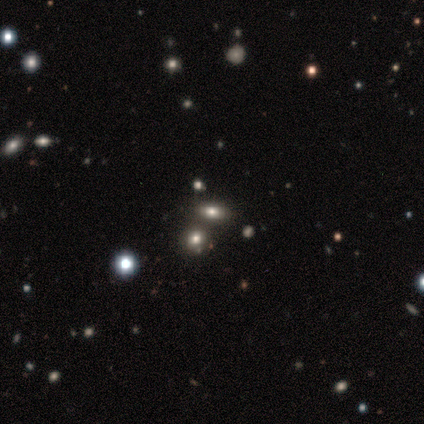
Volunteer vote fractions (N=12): Volunteers were most divided on "how rounded": in between: 62%, round: 25%, cigar-shaped: 12%. More confident: merging — none (78%); smooth or featured — smooth (67%).